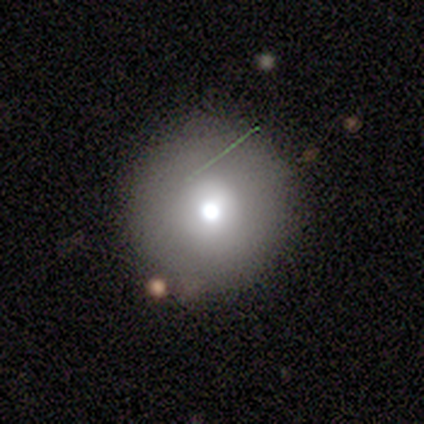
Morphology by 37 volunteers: Q: Smooth or featured?
A: smooth (57%); runner-up: featured or disk (30%)
Q: How rounded?
A: round (100%)
Q: Merging?
A: none (84%); runner-up: minor disturbance (6%)